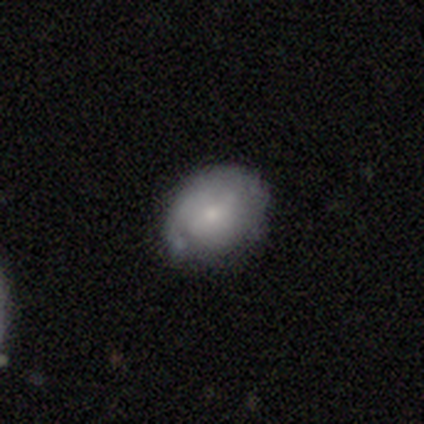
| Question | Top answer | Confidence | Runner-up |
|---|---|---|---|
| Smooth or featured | smooth | 80% | star or artifact (20%) |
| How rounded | round | 75% | in between (25%) |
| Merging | minor disturbance | 75% | none (25%) |